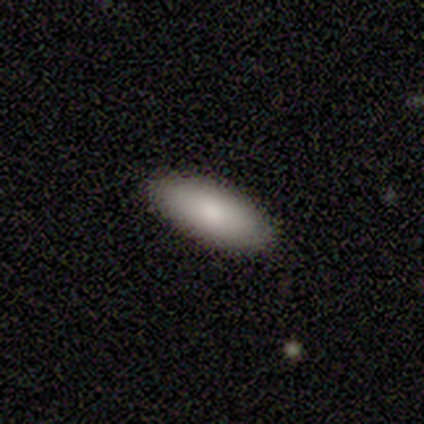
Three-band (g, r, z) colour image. It shows a smooth galaxy with no disk features (89%) that is in between round and cigar-shaped (82%). Merging: none (89%).